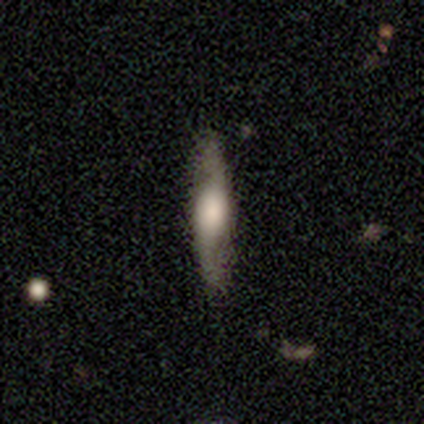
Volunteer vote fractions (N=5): smooth-or-featured: smooth: 80% | featured or disk: 20% | star or artifact: 0%
  how-rounded: cigar-shaped: 75% | in between: 25% | round: 0%
  merging: none: 80% | minor disturbance: 20% | major disturbance: 0% | merger: 0%